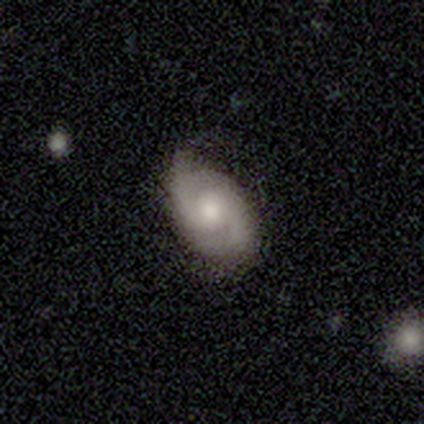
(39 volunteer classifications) Smooth or featured: featured or disk — 85% (smooth — 15%)
Edge-on disk: no — 100%
Bar: no — 61% (weak — 36%)
Spiral arms: yes — 94% (no — 6%)
Spiral winding: medium — 48% (tight — 39%)
Spiral arm count: 2 — 77% (can't tell — 19%)
Bulge size: moderate — 64% (small — 24%)
Merging: none — 79% (minor disturbance — 18%)